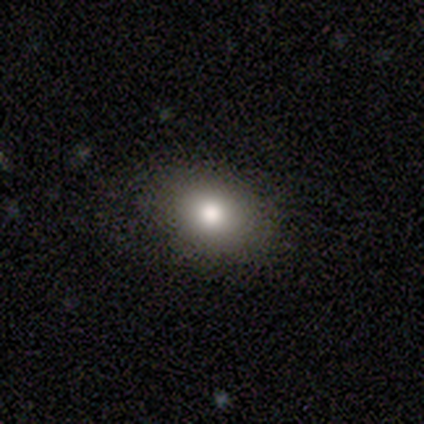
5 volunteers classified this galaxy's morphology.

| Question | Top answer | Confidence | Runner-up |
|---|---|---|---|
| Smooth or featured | smooth | 40% | tied: featured or disk (40%) |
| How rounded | in between | 100% | — |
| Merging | none | 100% | — |